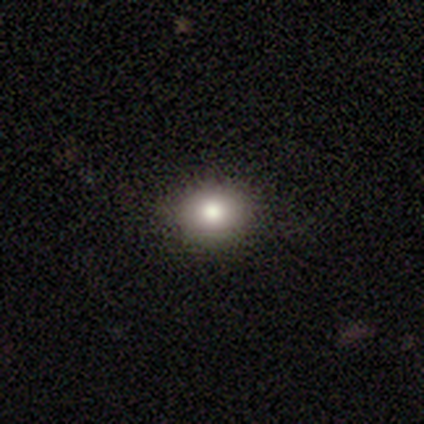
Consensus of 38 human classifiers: Smooth or featured? 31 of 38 (82%) said smooth. How rounded? 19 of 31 (61%) said round. Merging? 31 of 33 (94%) said none.